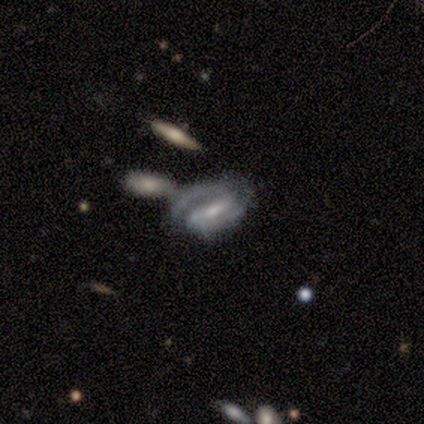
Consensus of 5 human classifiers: Overall: featured or disk (80%). Edge-on disk: no (100%). Bar: weak (100%). Spiral arms: yes (75%). Spiral arm count: 1 (33%, tied with 2 and can't tell). Spiral winding: loose (67%; tight 33%). Bulge size: moderate (75%). Merging: major disturbance (40%, tied with merger).